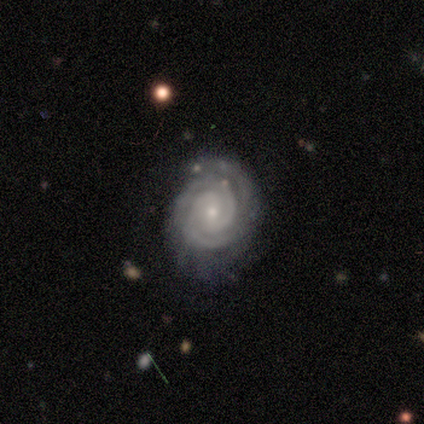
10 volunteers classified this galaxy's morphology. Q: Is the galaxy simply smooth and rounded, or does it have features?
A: featured or disk — 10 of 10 (100%).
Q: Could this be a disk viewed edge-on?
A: no — 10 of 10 (100%).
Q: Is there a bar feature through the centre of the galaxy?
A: weak — 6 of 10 (60%).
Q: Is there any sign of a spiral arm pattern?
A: yes — 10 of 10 (100%).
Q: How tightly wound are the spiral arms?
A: tight — 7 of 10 (70%).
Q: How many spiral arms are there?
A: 2 — 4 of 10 (40%, tied with 3).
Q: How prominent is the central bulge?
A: small — 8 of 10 (80%).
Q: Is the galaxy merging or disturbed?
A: none — 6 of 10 (60%).